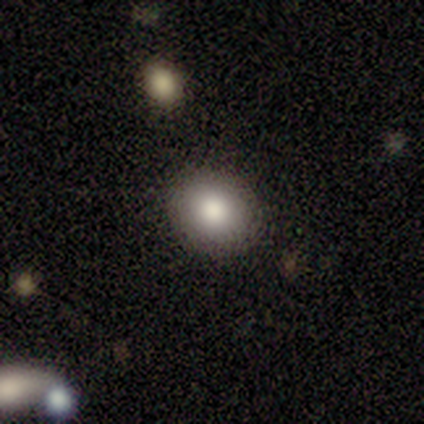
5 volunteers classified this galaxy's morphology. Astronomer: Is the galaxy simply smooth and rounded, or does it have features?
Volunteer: smooth — 80%.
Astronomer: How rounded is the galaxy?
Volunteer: round — 50%, tied with in between at 50%.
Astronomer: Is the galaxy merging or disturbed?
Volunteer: none — 75%.